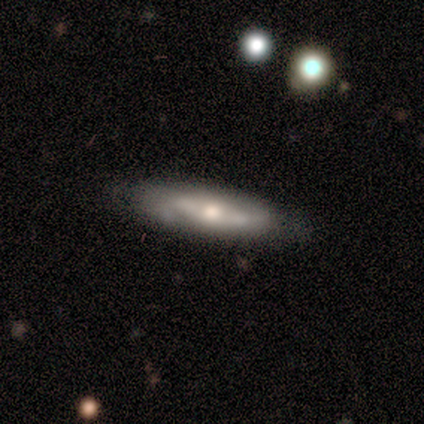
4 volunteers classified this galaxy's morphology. Smooth or featured: smooth — 50% (tied with featured or disk — 50%)
How rounded: in between — 50% (tied with cigar-shaped — 50%)
Merging: none — 100%